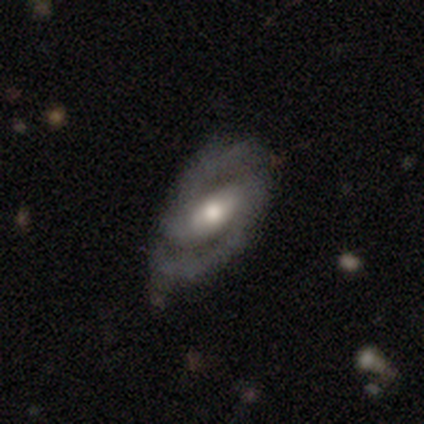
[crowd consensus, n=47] This is clearly a featured or disk galaxy (91%). It is clearly not viewed edge-on (95%). Bar: possibly strong (46%). Spiral arm pattern: clearly yes (95%). Spiral arm count: clearly 2 (97%). Spiral winding: possibly medium (51%). Central bulge: likely moderate (68%). Merging: clearly none (84%).